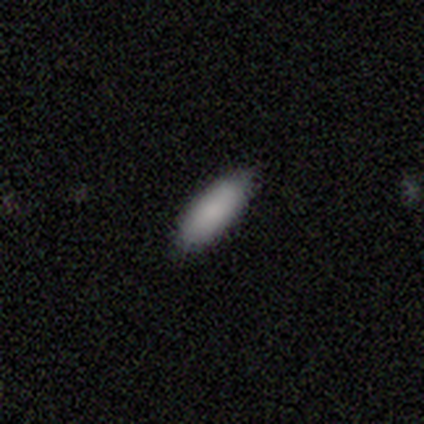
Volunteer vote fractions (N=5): smooth_or_featured: smooth (p=1.00)
how_rounded: in between (p=1.00)
merging: none (p=1.00)